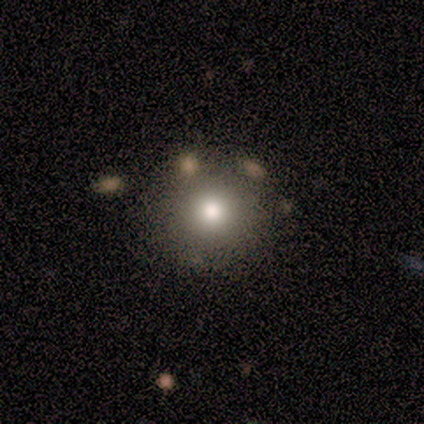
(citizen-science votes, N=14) Smooth or featured: smooth — 71% (star or artifact — 29%)
How rounded: round — 90% (in between — 10%)
Merging: none — 90% (minor disturbance — 10%)